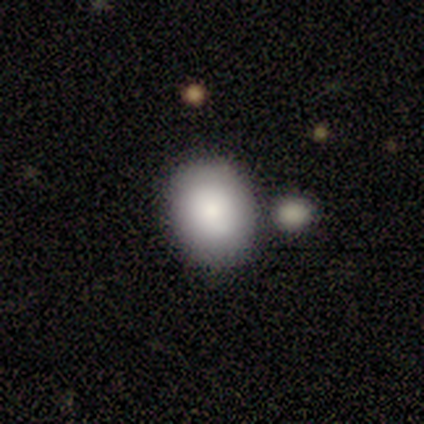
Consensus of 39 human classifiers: This appears to be a smooth galaxy with no disk features (82%) that is in between round and cigar-shaped (53%). Merging: none (81%).